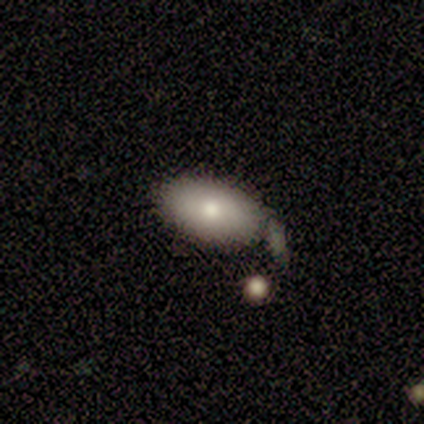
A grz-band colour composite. It shows a smooth galaxy with no disk features (75%) that is in between round and cigar-shaped (100%). Merging: none (62%).